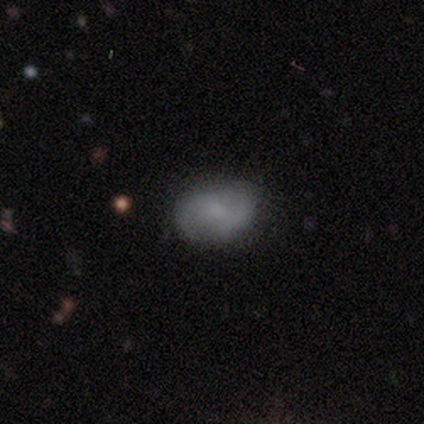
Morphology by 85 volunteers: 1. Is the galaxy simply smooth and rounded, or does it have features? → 52% smooth, 40% featured or disk, 8% star or artifact.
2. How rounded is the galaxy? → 84% in between, 14% round, 2% cigar-shaped.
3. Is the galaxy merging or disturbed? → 72% none, 23% minor disturbance, 3% major disturbance, 3% merger.